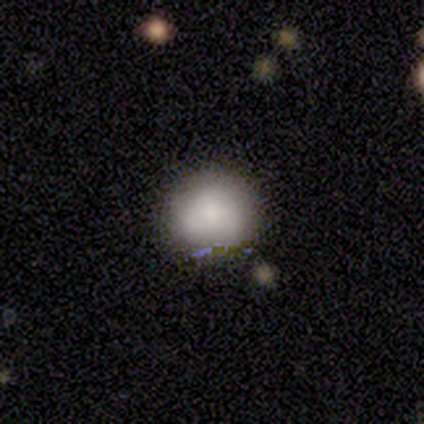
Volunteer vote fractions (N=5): Smooth or featured?
  - smooth: 100% *
  - featured or disk: 0%
  - star or artifact: 0%
How rounded?
  - round: 100% *
  - in between: 0%
  - cigar-shaped: 0%
Merging?
  - none: 60% *
  - minor disturbance: 20%
  - merger: 20%
  - major disturbance: 0%